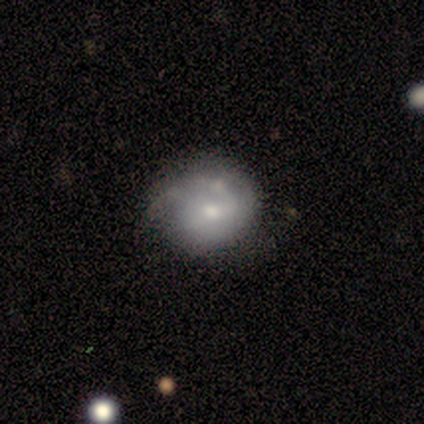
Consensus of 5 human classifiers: smooth-or-featured: smooth: 60% | featured or disk: 40% | star or artifact: 0%
  how-rounded: round: 67% | in between: 33% | cigar-shaped: 0%
  merging: none: 80% | minor disturbance: 20% | major disturbance: 0% | merger: 0%